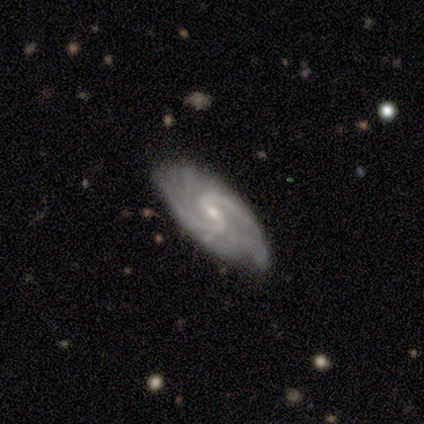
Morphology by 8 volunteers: Smooth or featured? 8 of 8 (100%) said featured or disk. Edge-on disk? 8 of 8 (100%) said no. Bar? 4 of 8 (50%) said no. Spiral arms? 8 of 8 (100%) said yes. Spiral winding? 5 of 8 (62%) said medium. Spiral arm count? 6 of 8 (75%) said 2. Bulge size? 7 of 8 (88%) said small. Merging? 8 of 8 (100%) said none.